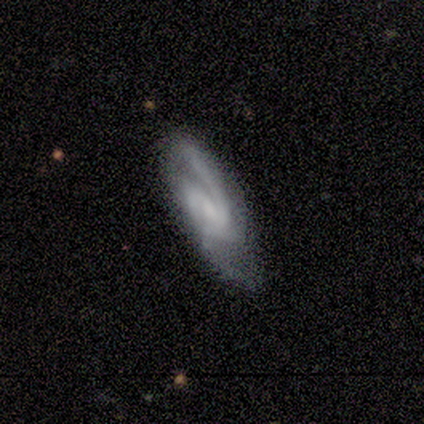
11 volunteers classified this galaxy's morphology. featured or disk 82%, smooth 18%, star or artifact 0%. Down the decision tree: edge-on disk — no (89%); bar — strong (38%, tied with no); spiral arms — yes (100%); spiral arm count — 2 (88%); spiral winding — medium (62%); bulge size — none (62%); merging — none (55%).